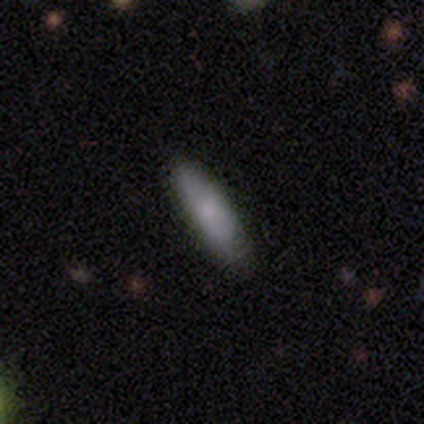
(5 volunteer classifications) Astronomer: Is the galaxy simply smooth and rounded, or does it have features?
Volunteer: smooth — 80%.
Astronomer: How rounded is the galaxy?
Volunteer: in between — 50%, tied with cigar-shaped at 50%.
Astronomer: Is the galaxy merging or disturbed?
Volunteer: none — 100%.